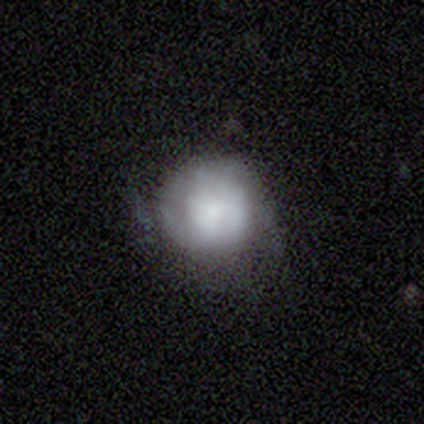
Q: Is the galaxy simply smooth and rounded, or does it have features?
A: smooth — 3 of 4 (75%).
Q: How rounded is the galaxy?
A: round — 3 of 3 (100%).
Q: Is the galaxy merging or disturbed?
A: none — 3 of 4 (75%).